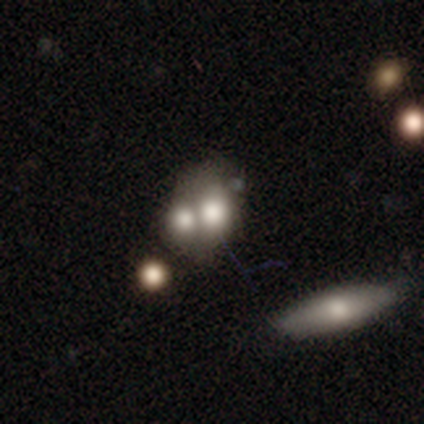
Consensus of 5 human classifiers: Smooth or featured?
  - smooth: 60% *
  - featured or disk: 40%
  - star or artifact: 0%
How rounded?
  - in between: 67% *
  - round: 33%
  - cigar-shaped: 0%
Merging?
  - none: 40% * (tied)
  - merger: 40% * (tied)
  - major disturbance: 20%
  - minor disturbance: 0%